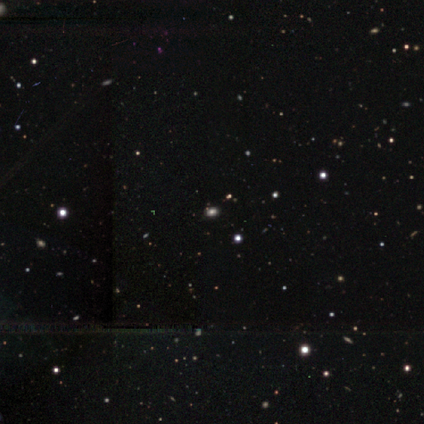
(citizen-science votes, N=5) Volunteers were most divided on "smooth or featured": star or artifact: 60%, smooth: 40%, featured or disk: 0%.